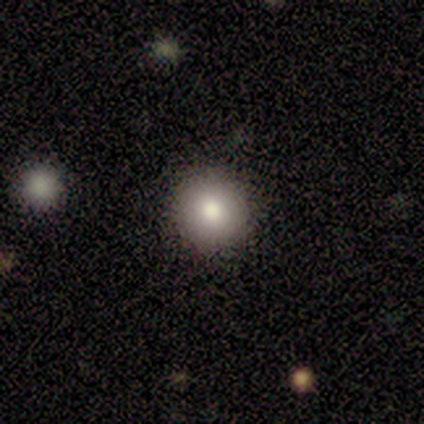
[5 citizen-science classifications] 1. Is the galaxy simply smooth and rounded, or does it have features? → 100% smooth, 0% featured or disk, 0% star or artifact.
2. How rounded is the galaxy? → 100% round, 0% in between, 0% cigar-shaped.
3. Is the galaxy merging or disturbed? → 100% none, 0% minor disturbance, 0% major disturbance, 0% merger.